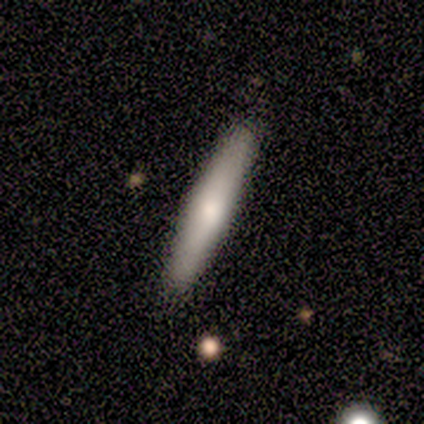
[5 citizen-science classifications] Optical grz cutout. It shows a featured or disk galaxy (60%) viewed edge-on (100%) with a rounded central bulge (67%). Merging: none (100%).